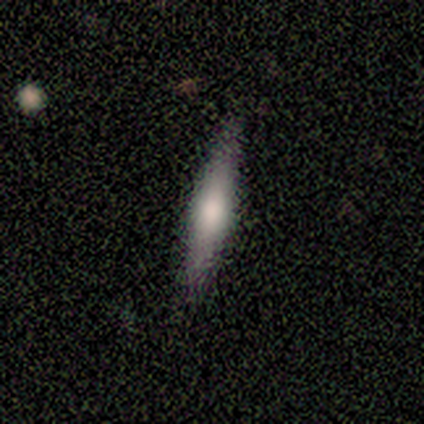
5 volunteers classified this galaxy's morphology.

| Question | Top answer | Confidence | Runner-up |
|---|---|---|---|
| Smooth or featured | smooth | 80% | featured or disk (20%) |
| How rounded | in between | 50% | tied: cigar-shaped (50%) |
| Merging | none | 100% | — |